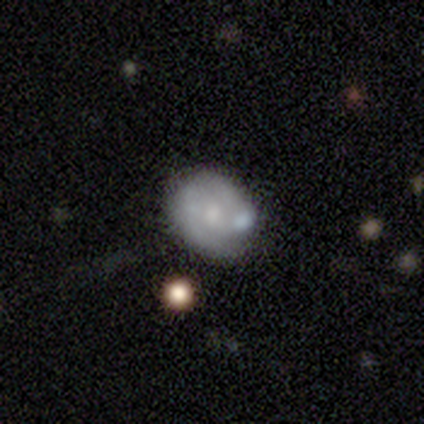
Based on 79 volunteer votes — Smooth or featured? smooth (49%, tied with featured or disk)
How rounded? round (59%)
Merging? none (33%)